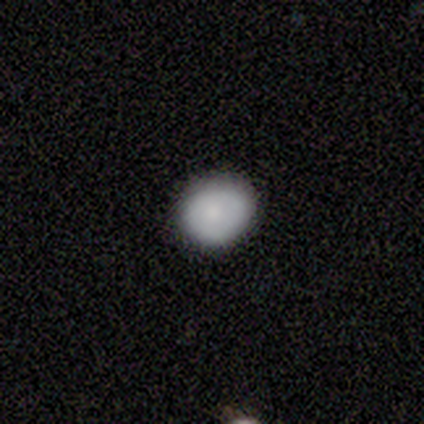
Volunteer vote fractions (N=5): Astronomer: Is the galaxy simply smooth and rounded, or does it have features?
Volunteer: smooth — 60%.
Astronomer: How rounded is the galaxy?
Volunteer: round — 67%.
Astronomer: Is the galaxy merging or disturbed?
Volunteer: none — 100%.